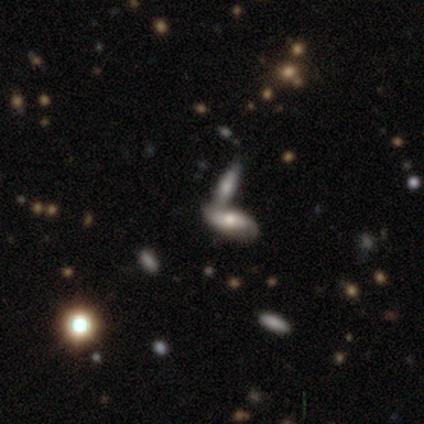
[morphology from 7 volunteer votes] Smooth or featured: smooth — 57% (featured or disk — 43%)
How rounded: in between — 50% (tied with cigar-shaped — 50%)
Merging: merger — 71% (none — 29%)